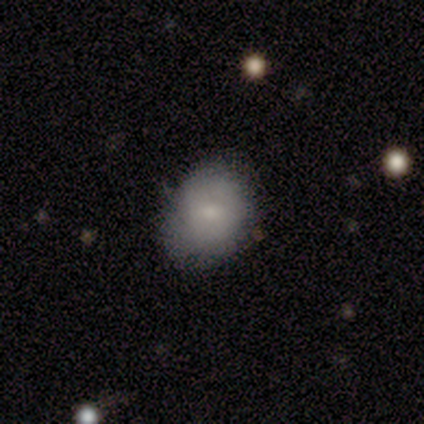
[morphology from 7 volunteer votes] smooth 86%, featured or disk 14%, star or artifact 0%. Down the decision tree: how rounded — round (67%); merging — none (86%).